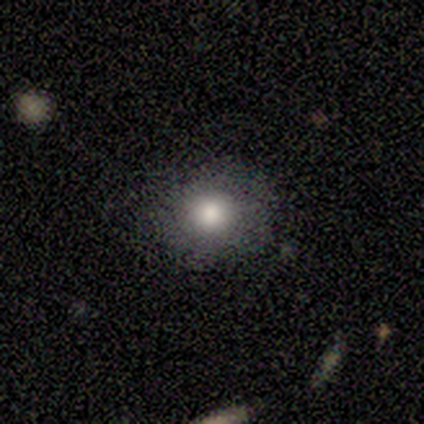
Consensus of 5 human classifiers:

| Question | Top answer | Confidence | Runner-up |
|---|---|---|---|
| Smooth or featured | smooth | 80% | star or artifact (20%) |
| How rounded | round | 100% | — |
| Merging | none | 100% | — |